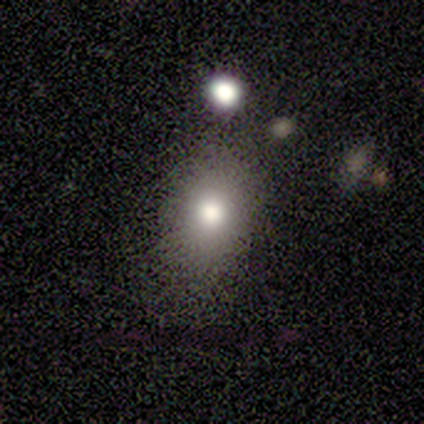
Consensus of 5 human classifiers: Smooth or featured? 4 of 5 (80%) said smooth. How rounded? 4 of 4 (100%) said in between. Merging? 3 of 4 (75%) said none.